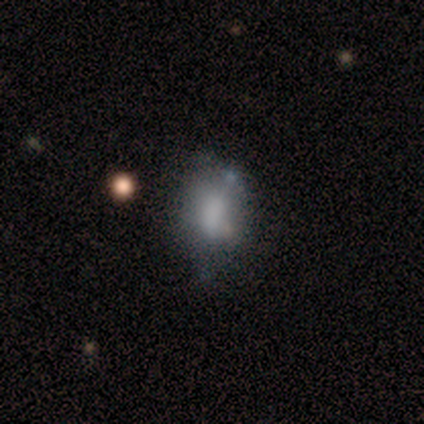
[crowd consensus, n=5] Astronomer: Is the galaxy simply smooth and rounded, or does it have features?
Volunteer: featured or disk — 60% (runner-up: smooth, 40%).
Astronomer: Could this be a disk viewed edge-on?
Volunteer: no — 100%.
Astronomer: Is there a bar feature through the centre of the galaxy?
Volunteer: weak — 67%.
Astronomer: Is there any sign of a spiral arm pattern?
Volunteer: no — 100%.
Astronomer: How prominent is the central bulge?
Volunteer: small — 67%.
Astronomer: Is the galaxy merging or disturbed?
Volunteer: minor disturbance — 60% (runner-up: none, 40%).